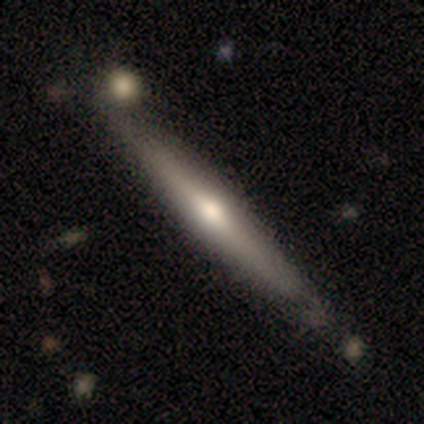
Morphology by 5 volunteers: smooth-or-featured: featured or disk: 100% | smooth: 0% | star or artifact: 0%
  disk-edge-on: yes: 100% | no: 0%
    edge-on-bulge: rounded: 60% | none: 40% | boxy: 0%
  merging: minor disturbance: 60% | none: 40% | major disturbance: 0% | merger: 0%